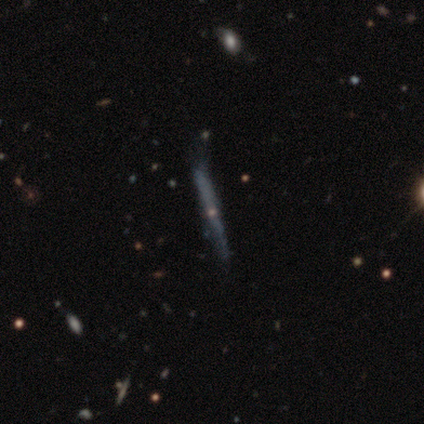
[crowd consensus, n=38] Smooth or featured?
  - featured or disk: 79% *
  - smooth: 16%
  - star or artifact: 5%
Edge-on disk?
  - yes: 93% *
  - no: 7%
Edge-on bulge?
  - rounded: 61% *
  - none: 39%
  - boxy: 0%
Merging?
  - none: 69% *
  - minor disturbance: 28%
  - major disturbance: 3%
  - merger: 0%